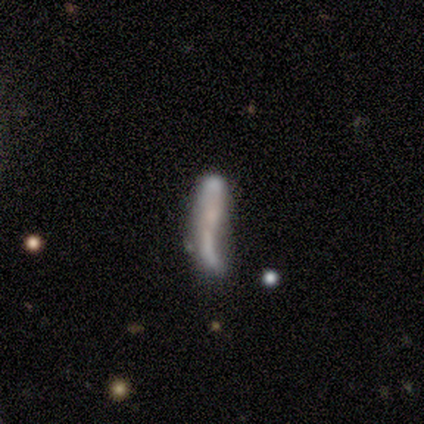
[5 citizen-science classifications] Overall: featured or disk (60%; smooth 20%). Edge-on disk: no (67%; yes 33%). Bar: strong (50%, tied with no). Spiral arms: yes (50%, tied with no). Spiral arm count: 2 (100%). Spiral winding: loose (100%). Bulge size: small (50%, tied with none). Merging: merger (50%; minor disturbance 25%).